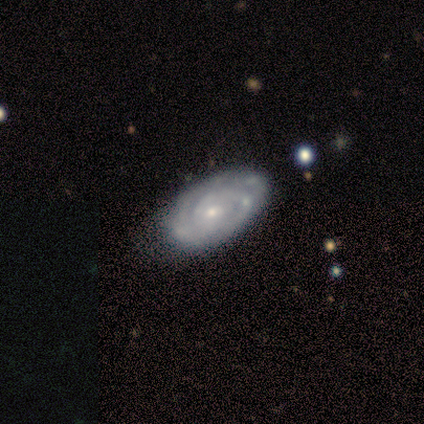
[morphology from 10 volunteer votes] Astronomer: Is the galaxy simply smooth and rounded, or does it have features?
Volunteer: featured or disk — 90%.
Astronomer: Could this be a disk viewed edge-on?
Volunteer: no — 100%.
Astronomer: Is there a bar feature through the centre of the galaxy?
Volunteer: no — 89%.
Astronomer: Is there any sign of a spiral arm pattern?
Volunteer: yes — 100%.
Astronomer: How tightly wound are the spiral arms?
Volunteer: tight — 100%.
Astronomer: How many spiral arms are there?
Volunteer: can't tell — 56% (runner-up: 2, 33%).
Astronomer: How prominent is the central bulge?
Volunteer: small — 100%.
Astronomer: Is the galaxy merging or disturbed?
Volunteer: none — 70%.